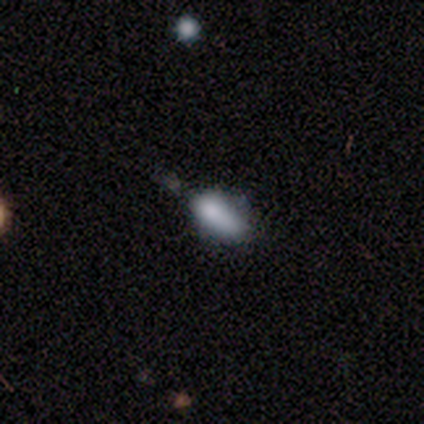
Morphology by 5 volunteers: Smooth or featured?
  - smooth: 60% *
  - featured or disk: 20%
  - star or artifact: 20%
How rounded?
  - cigar-shaped: 67% *
  - in between: 33%
  - round: 0%
Merging?
  - none: 75% *
  - minor disturbance: 25%
  - major disturbance: 0%
  - merger: 0%